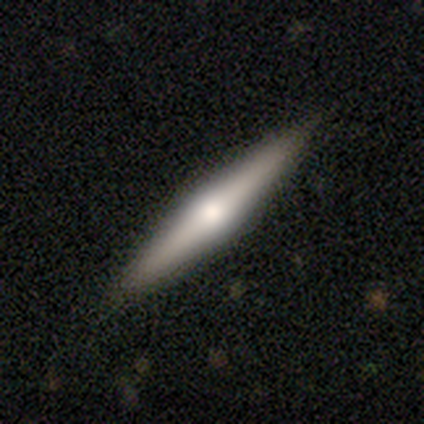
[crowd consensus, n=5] A featured or disk galaxy (80%) viewed edge-on (100%) with a rounded central bulge (75%). Merging: none (60%).